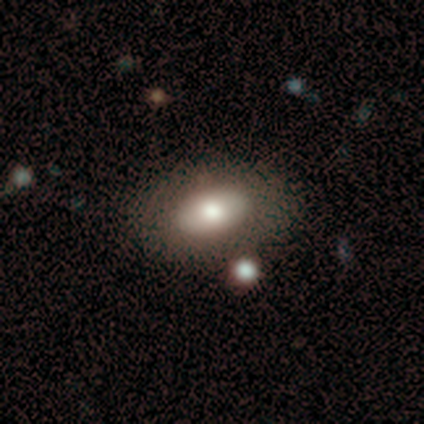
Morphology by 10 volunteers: smooth 60%, featured or disk 40%, star or artifact 0%. Down the decision tree: how rounded — in between (100%); merging — none (90%).